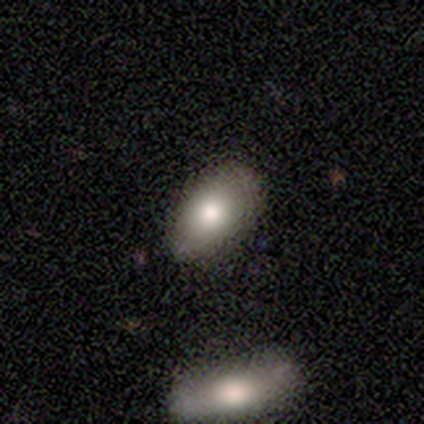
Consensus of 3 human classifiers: Smooth or featured: smooth — 100%
How rounded: in between — 100%
Merging: none — 100%